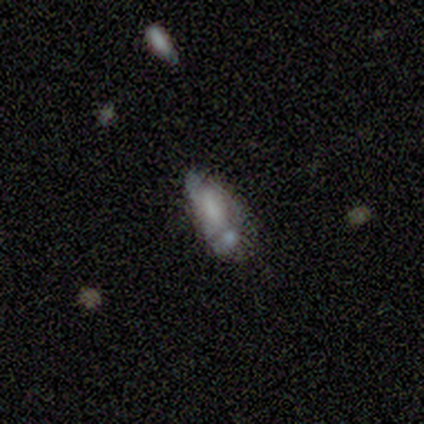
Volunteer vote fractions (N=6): smooth-or-featured: smooth: 50% (tied) | featured or disk: 50% (tied) | star or artifact: 0%
  how-rounded: in between: 67% | cigar-shaped: 33% | round: 0%
  merging: major disturbance: 50% (tied) | merger: 50% (tied) | none: 0% | minor disturbance: 0%